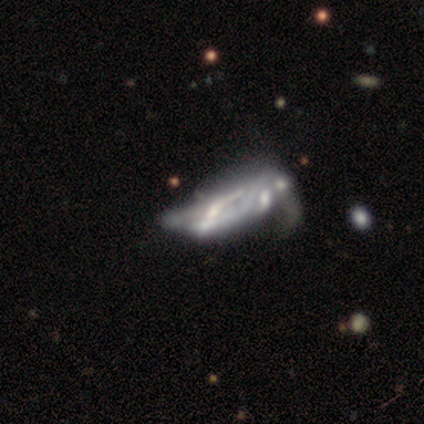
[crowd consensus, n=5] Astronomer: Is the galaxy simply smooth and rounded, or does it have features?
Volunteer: featured or disk — 100%.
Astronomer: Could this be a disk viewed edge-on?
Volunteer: no — 80%.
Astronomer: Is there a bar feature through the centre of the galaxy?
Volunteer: no — 100%.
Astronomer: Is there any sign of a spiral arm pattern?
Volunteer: no — 75%.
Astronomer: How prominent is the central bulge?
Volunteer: none — 100%.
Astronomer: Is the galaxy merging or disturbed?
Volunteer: major disturbance — 60%.